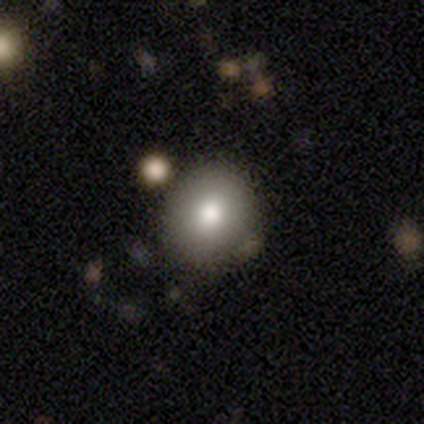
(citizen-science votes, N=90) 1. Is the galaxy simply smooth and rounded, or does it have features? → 82% smooth, 11% featured or disk, 7% star or artifact.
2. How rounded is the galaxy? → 82% round, 18% in between, 0% cigar-shaped.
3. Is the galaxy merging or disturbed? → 83% none, 11% minor disturbance, 4% major disturbance, 2% merger.